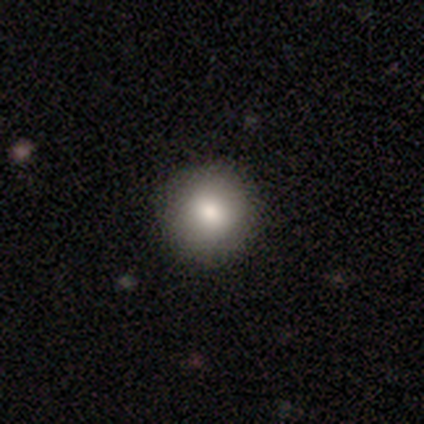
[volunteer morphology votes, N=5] This is clearly a smooth galaxy (80%). How rounded: clearly round (100%). Merging: clearly none (100%).